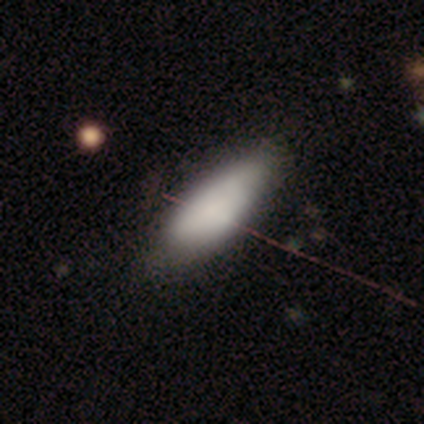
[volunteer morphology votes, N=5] Smooth or featured? 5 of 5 (100%) said smooth. How rounded? 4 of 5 (80%) said in between. Merging? 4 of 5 (80%) said none.